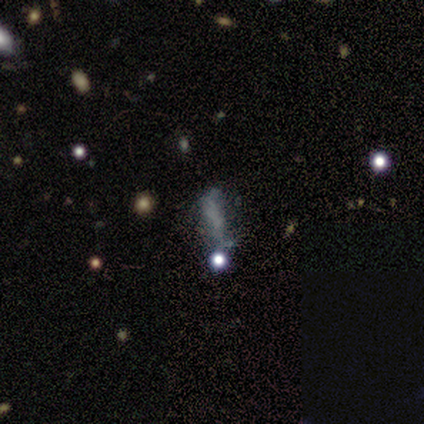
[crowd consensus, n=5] This appears to be a star or artifact, not a galaxy (60%).